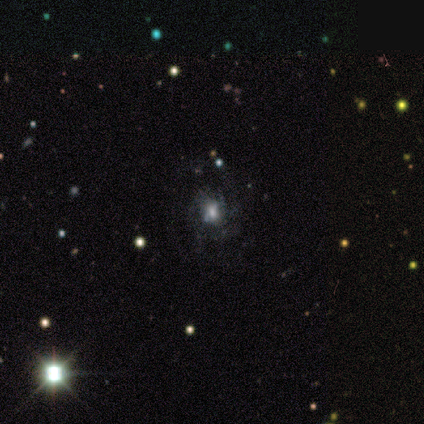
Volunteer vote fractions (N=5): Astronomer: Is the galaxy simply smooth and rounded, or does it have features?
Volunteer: featured or disk — 60%.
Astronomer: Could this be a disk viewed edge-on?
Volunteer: no — 100%.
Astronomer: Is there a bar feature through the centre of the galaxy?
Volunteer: strong — 33%, tied with weak and no at 33%.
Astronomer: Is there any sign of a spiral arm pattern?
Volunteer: yes — 100%.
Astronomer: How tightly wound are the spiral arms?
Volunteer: medium — 67%.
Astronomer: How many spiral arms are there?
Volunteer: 1 — 33%, tied with 4 and can't tell at 33%.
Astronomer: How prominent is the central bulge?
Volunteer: moderate — 100%.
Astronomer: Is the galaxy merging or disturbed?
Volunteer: none — 100%.